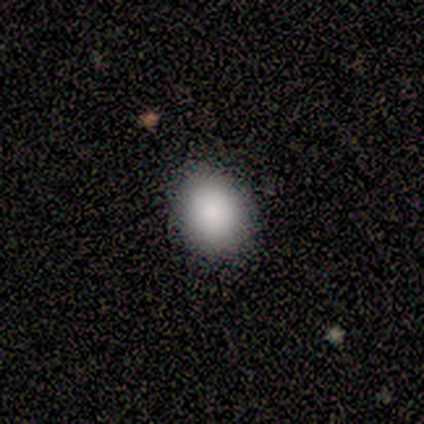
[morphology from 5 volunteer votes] A smooth galaxy with no disk features (80%) that is round (75%). Merging: none (75%).